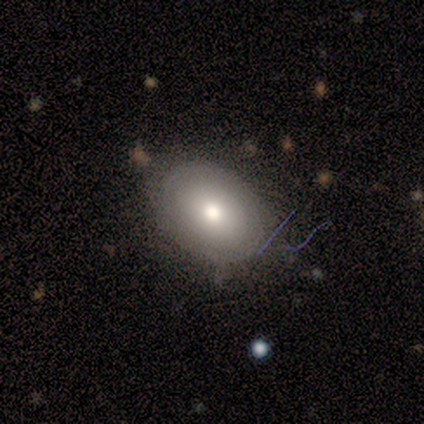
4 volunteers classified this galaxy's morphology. This appears to be a smooth galaxy with no disk features (50%, tied with featured or disk) that is round (50%, tied with in between). Merging: none (75%).